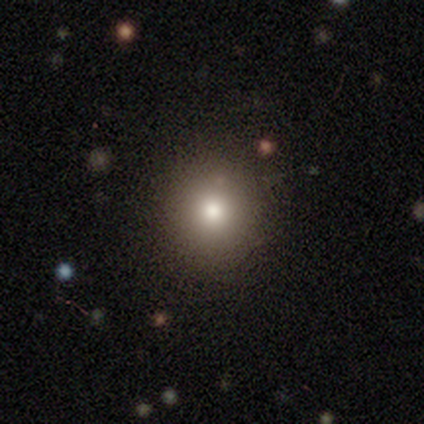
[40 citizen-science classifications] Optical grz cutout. It shows a smooth galaxy with no disk features (70%) that is round (89%). Merging: none (74%).